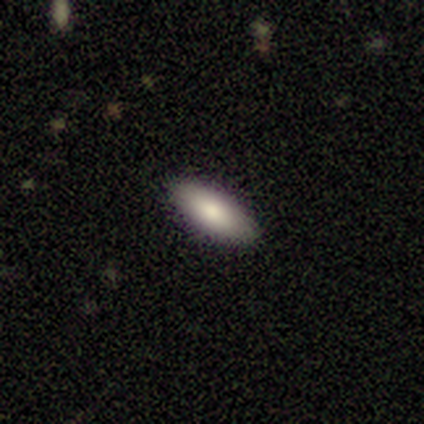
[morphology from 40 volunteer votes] smooth_or_featured: smooth (p=0.90) [alt: featured or disk p=0.07]
how_rounded: in between (p=0.89) [alt: round p=0.06]
merging: none (p=0.90) [alt: minor disturbance p=0.10]